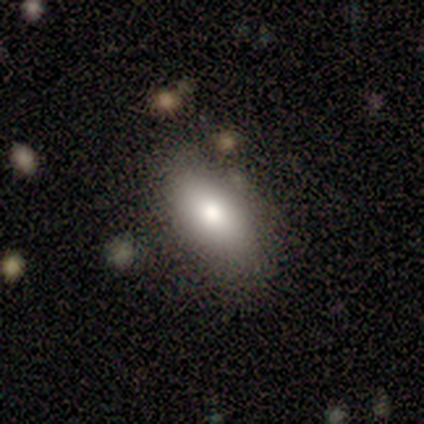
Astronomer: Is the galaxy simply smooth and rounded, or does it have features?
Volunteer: smooth — 86%.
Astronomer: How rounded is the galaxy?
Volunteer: in between — 83%.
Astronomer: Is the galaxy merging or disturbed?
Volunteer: none — 100%.